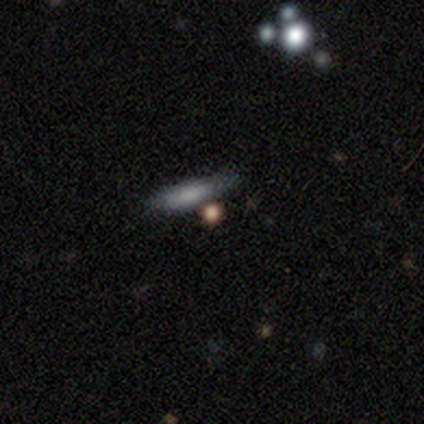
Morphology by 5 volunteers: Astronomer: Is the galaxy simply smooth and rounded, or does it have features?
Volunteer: smooth — 80%.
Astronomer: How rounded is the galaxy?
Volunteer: in between — 75%.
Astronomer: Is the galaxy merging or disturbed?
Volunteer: none — 60%.